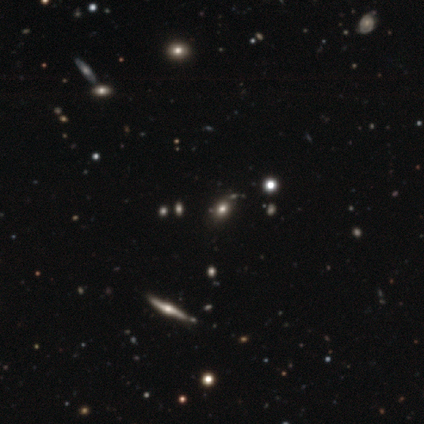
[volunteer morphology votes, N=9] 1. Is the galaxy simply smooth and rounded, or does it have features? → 56% smooth, 22% featured or disk, 22% star or artifact.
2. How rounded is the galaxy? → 80% in between, 20% round, 0% cigar-shaped.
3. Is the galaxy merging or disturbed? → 71% none, 14% minor disturbance, 14% merger, 0% major disturbance.